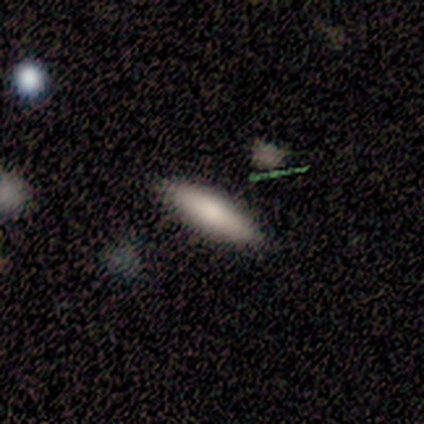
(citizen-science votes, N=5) Q: Smooth or featured?
A: smooth (100%)
Q: How rounded?
A: in between (60%); runner-up: cigar-shaped (40%)
Q: Merging?
A: none (80%); runner-up: minor disturbance (20%)